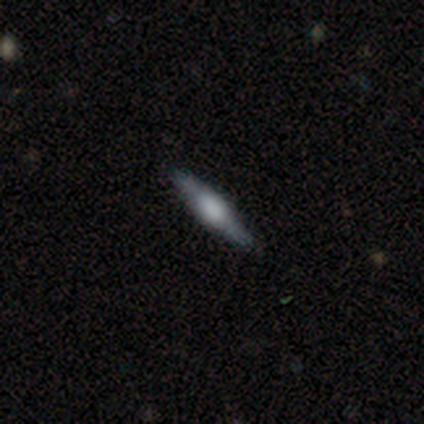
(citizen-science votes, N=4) Volunteers were most divided on "edge-on bulge": boxy: 67%, rounded: 33%, none: 0%. More confident: smooth or featured — featured or disk (100%); merging — none (100%); edge-on disk — yes (75%).